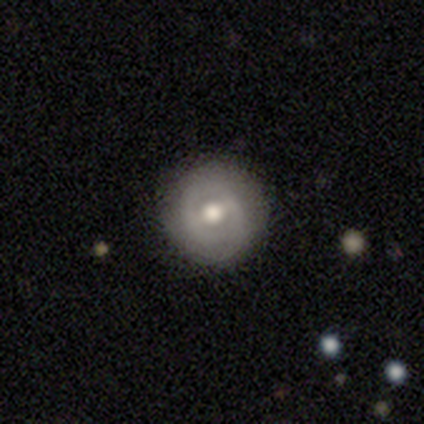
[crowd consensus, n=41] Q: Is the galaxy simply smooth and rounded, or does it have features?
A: featured or disk — 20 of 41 (49%).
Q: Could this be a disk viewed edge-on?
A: no — 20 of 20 (100%).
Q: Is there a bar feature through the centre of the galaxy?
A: weak — 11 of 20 (55%).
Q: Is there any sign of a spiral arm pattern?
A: yes — 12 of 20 (60%).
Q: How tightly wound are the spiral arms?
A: tight — 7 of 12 (58%).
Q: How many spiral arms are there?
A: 2 — 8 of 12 (67%).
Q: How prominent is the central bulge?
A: moderate — 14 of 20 (70%).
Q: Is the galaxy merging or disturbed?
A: none — 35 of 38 (92%).